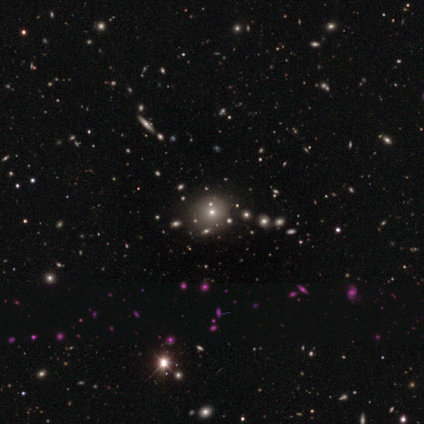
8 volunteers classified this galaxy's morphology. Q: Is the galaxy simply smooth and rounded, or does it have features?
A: smooth — 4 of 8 (50%, tied with star or artifact).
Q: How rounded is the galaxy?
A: round — 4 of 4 (100%).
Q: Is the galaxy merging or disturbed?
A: none — 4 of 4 (100%).